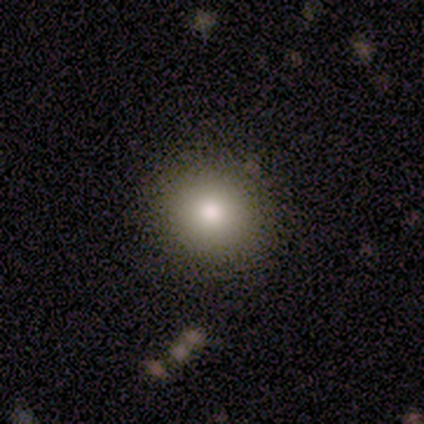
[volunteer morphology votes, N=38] A smooth galaxy with no disk features (87%) that is round (91%). Merging: none (86%).